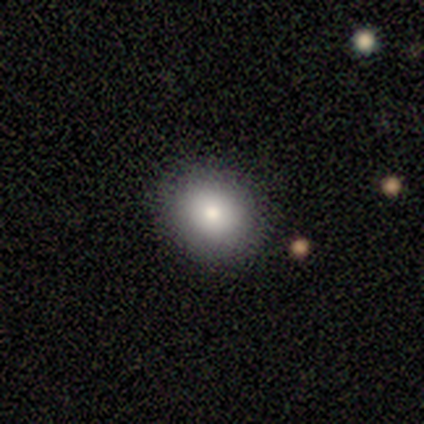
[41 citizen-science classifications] A smooth galaxy with no disk features (76%) that is round (74%). Merging: none (89%).